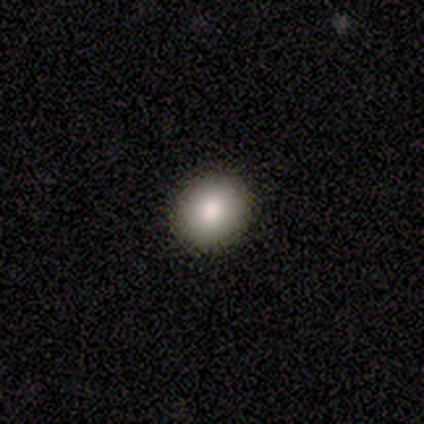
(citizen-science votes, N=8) Volunteers were most divided on "how rounded": round: 62%, in between: 38%, cigar-shaped: 0%. More confident: smooth or featured — smooth (100%); merging — none (88%).